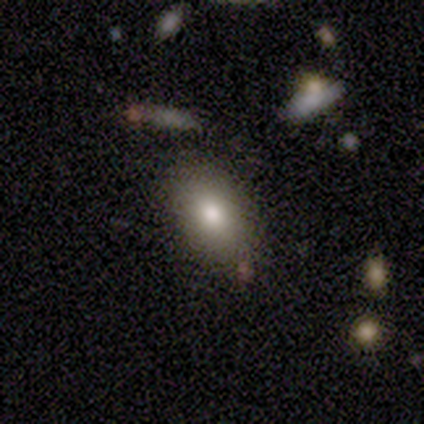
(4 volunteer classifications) Morphology: type=smooth (75%); roundness=in between (100%); merging=none (50%).